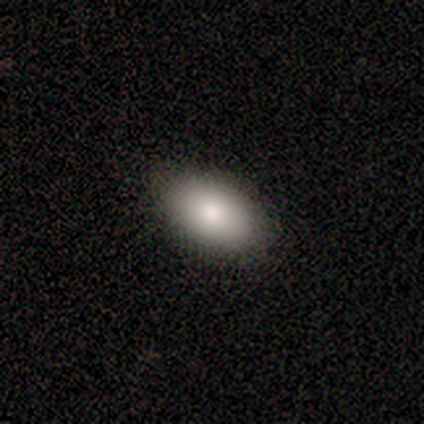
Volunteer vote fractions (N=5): This appears to be a smooth galaxy with no disk features (100%) that is in between round and cigar-shaped (100%). Merging: none (80%).